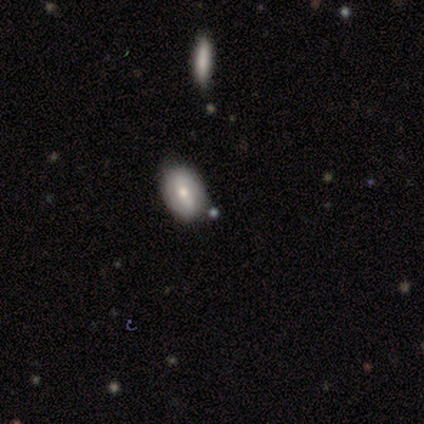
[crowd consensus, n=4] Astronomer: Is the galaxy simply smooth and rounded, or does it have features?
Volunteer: smooth — 50%.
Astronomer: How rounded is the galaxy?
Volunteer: round — 50%, tied with in between at 50%.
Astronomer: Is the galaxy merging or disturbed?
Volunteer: none — 67%.